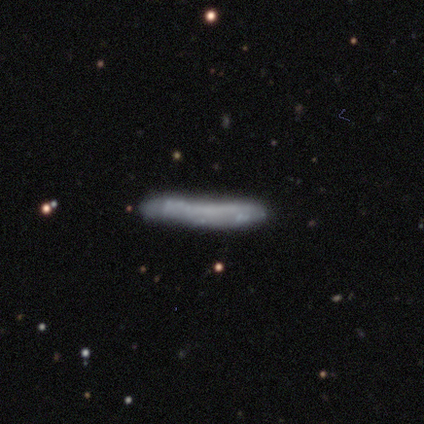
A smooth galaxy with no disk features (75%) that is cigar-shaped (100%). Merging: none (75%).